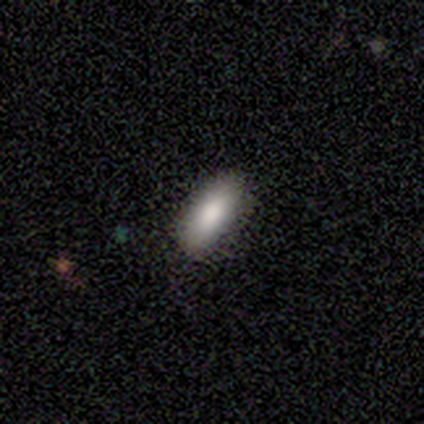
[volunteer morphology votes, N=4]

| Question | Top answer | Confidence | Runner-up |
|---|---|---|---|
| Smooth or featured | smooth | 75% | star or artifact (25%) |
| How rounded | in between | 67% | cigar-shaped (33%) |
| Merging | none | 100% | — |